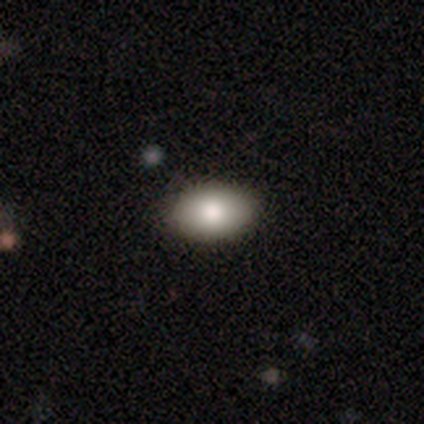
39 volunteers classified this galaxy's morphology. smooth-or-featured: smooth: 82% | featured or disk: 15% | star or artifact: 3%
  how-rounded: in between: 97% | round: 3% | cigar-shaped: 0%
  merging: none: 58% | merger: 5% | minor disturbance: 3% | major disturbance: 0%